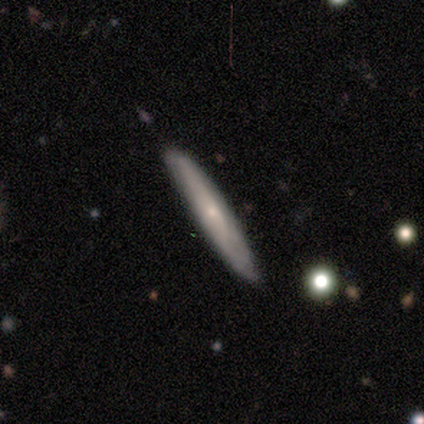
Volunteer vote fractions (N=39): Smooth or featured?
  - featured or disk: 59% *
  - smooth: 33%
  - star or artifact: 8%
Edge-on disk?
  - yes: 91% *
  - no: 9%
Edge-on bulge?
  - none: 52% *
  - rounded: 43%
  - boxy: 5%
Merging?
  - none: 78% *
  - merger: 6%
  - minor disturbance: 3%
  - major disturbance: 0%